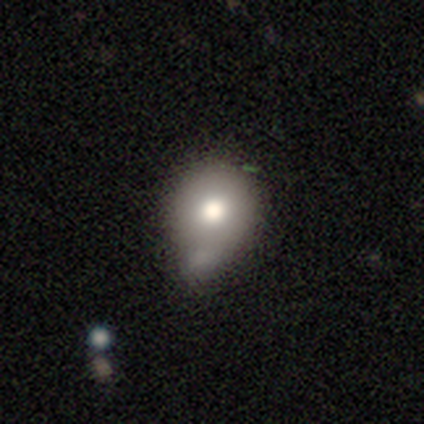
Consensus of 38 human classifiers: Morphology: type=smooth (74%); roundness=round (71%); merging=minor disturbance (55%).